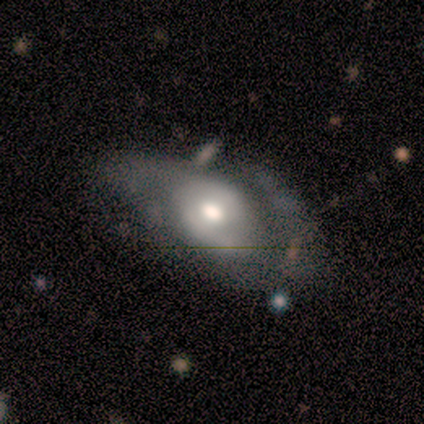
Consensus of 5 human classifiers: Smooth or featured? 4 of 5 (80%) said featured or disk. Edge-on disk? 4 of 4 (100%) said no. Bar? 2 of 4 (50%, tied with no) said weak. Spiral arms? 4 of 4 (100%) said yes. Spiral winding? 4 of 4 (100%) said medium. Spiral arm count? 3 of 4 (75%) said 2. Bulge size? 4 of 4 (100%) said moderate. Merging? 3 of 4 (75%) said none.